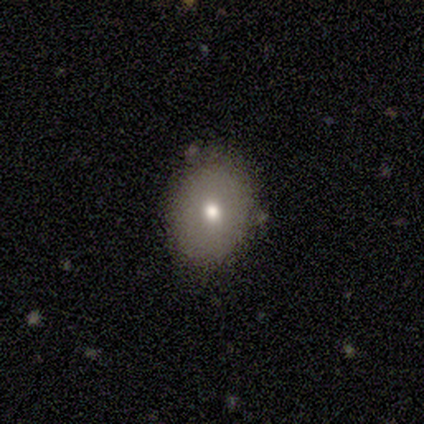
This is clearly a smooth galaxy (100%). How rounded: likely round (60%). Merging: likely none (60%).